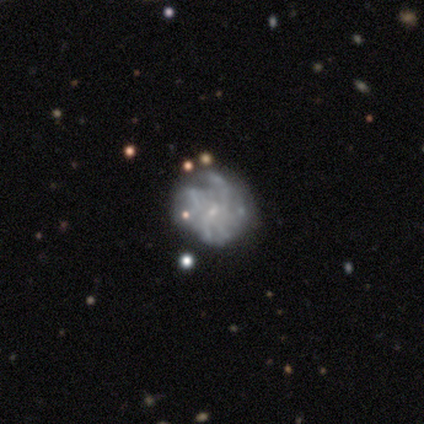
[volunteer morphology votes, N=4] Volunteers were most divided on "spiral arms": no: 67%, yes: 33%. More confident: edge-on disk — no (100%); bar — no (100%); smooth or featured — featured or disk (75%); bulge size — small (67%); merging — none (67%).